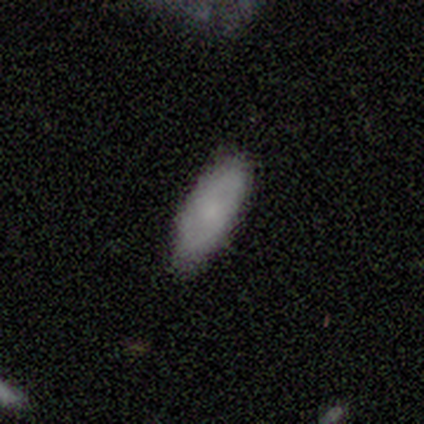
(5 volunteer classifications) smooth_or_featured: smooth (p=0.80) [alt: featured or disk p=0.20]
how_rounded: in between (p=0.50) [tied with: cigar-shaped p=0.50]
merging: none (p=1.00)